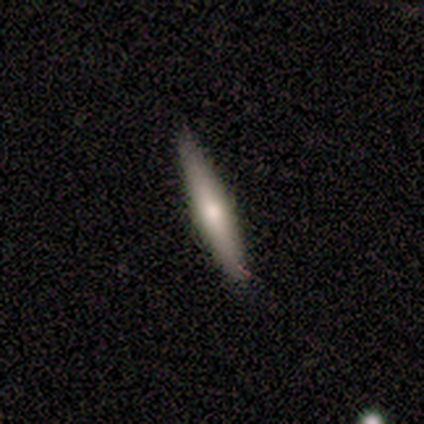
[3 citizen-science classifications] Smooth or featured? 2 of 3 (67%) said smooth. How rounded? 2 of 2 (100%) said cigar-shaped. Merging? 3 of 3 (100%) said none.